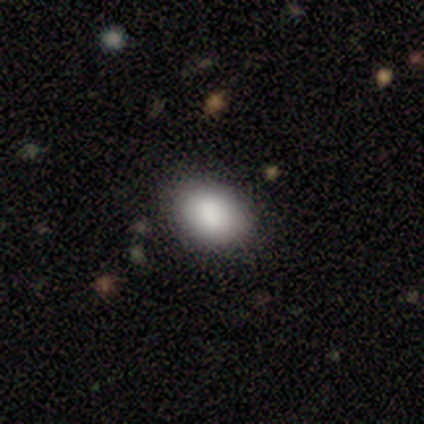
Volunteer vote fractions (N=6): Smooth or featured?
  - smooth: 100% *
  - featured or disk: 0%
  - star or artifact: 0%
How rounded?
  - in between: 67% *
  - round: 33%
  - cigar-shaped: 0%
Merging?
  - none: 100% *
  - minor disturbance: 0%
  - major disturbance: 0%
  - merger: 0%